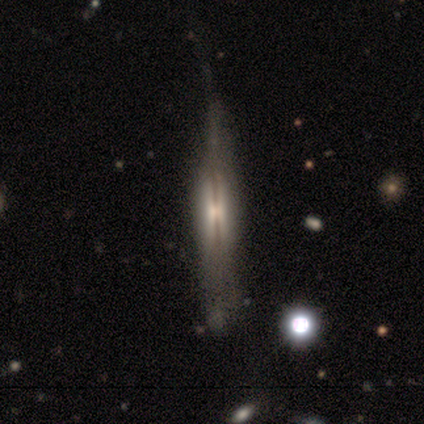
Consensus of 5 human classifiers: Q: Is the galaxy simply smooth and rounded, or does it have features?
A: featured or disk — 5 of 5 (100%).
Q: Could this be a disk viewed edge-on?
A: yes — 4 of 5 (80%).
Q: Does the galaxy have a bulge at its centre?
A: boxy — 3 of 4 (75%).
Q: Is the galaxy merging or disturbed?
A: none — 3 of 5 (60%).